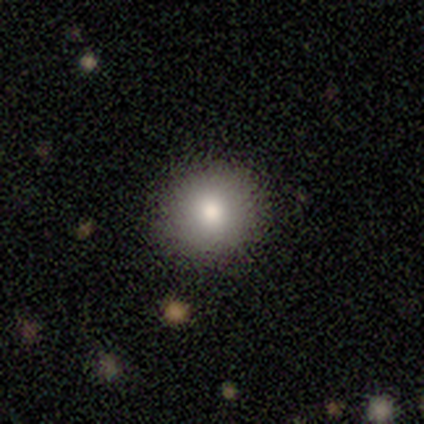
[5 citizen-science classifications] Smooth or featured: smooth — 100%
How rounded: round — 100%
Merging: none — 100%